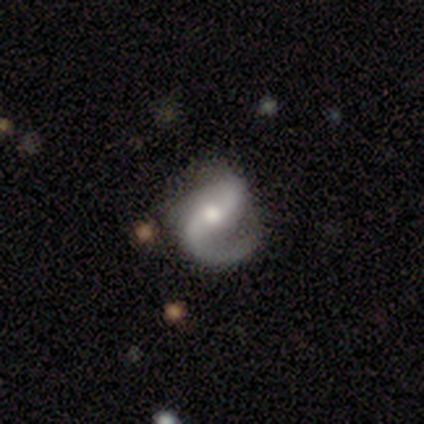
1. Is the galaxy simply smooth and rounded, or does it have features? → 80% featured or disk, 12% star or artifact, 8% smooth.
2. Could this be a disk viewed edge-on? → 100% no, 0% yes.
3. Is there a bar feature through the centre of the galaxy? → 38% strong, 31% weak, 31% no.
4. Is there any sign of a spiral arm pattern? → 94% yes, 6% no.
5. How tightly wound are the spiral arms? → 50% medium, 30% loose, 20% tight.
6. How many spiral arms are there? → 50% 2, 47% 1, 3% 3, 0% 4, 0% more than 4, 0% can't tell.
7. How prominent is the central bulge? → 66% moderate, 22% small, 12% large, 0% dominant, 0% none.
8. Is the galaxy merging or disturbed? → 57% none, 26% minor disturbance, 17% major disturbance, 0% merger.